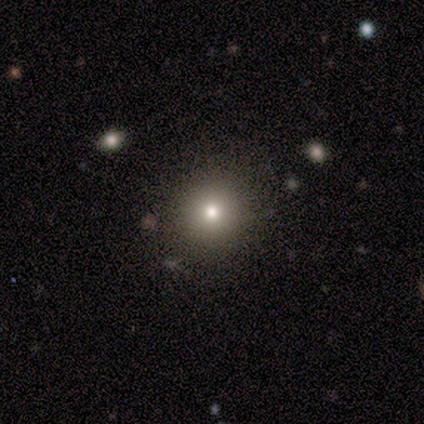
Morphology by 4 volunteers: Volunteers were most divided on "how rounded": round: 75%, in between: 25%, cigar-shaped: 0%. More confident: smooth or featured — smooth (100%); merging — none (100%).